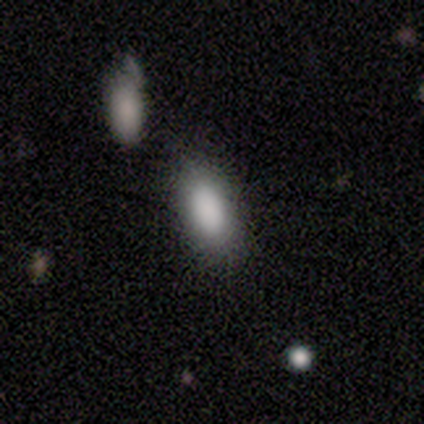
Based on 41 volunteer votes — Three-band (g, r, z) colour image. It shows a smooth galaxy with no disk features (88%) that is in between round and cigar-shaped (94%). Merging: none (59%).